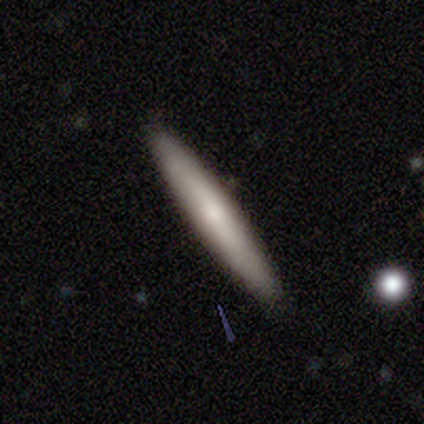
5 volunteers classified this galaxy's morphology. A smooth galaxy with no disk features (100%) that is cigar-shaped (100%). Merging: none (80%).